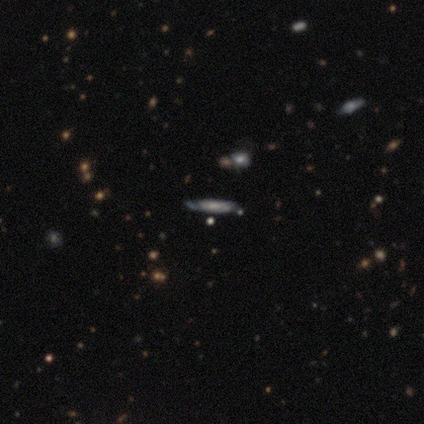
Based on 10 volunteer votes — Morphology: type=featured or disk (60%); edge-on=yes (67%); edge-on bulge=none (50%); merging=none (89%).